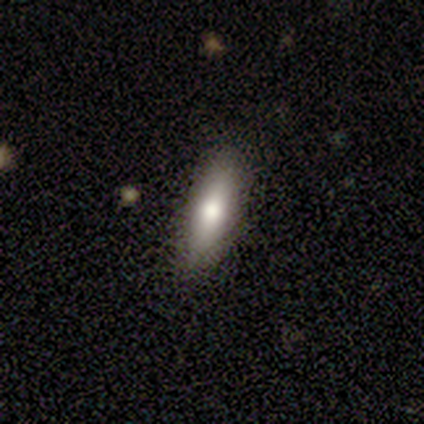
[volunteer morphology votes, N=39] Smooth or featured: smooth — 82% (featured or disk — 13%)
How rounded: cigar-shaped — 53% (in between — 47%)
Merging: none — 84% (minor disturbance — 11%)